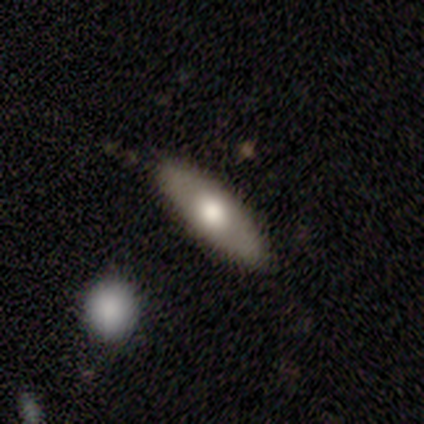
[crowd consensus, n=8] Smooth or featured: smooth — 75% (featured or disk — 12%)
How rounded: in between — 67% (cigar-shaped — 33%)
Merging: none — 71% (minor disturbance — 29%)